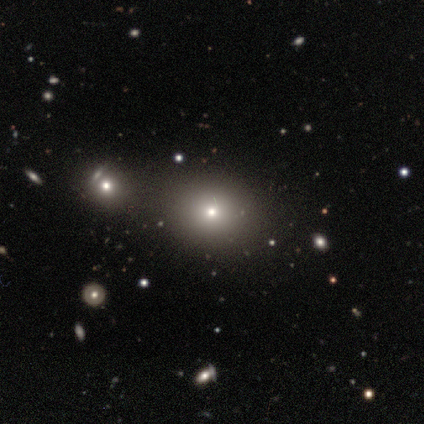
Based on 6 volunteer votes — Smooth or featured?
  - smooth: 83% *
  - star or artifact: 17%
  - featured or disk: 0%
How rounded?
  - round: 60% *
  - in between: 40%
  - cigar-shaped: 0%
Merging?
  - none: 60% *
  - minor disturbance: 40%
  - major disturbance: 0%
  - merger: 0%